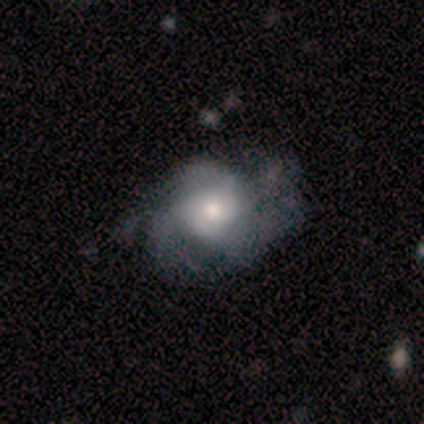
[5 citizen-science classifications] Smooth or featured: featured or disk — 80% (smooth — 20%)
Edge-on disk: no — 75% (yes — 25%)
Bar: no — 100%
Spiral arms: yes — 67% (no — 33%)
Spiral winding: loose — 100%
Spiral arm count: more than 4 — 50% (tied with can't tell — 50%)
Bulge size: large — 67% (moderate — 33%)
Merging: major disturbance — 80% (minor disturbance — 20%)